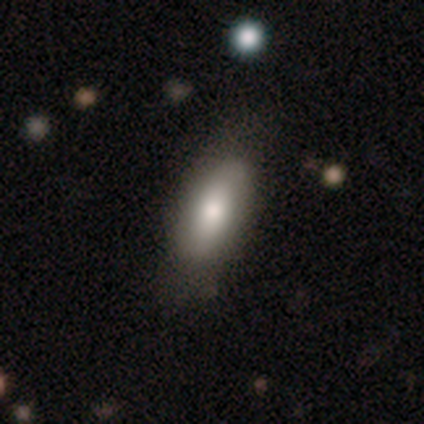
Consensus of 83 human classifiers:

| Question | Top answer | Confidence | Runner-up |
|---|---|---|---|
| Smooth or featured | smooth | 76% | featured or disk (19%) |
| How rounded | in between | 78% | cigar-shaped (19%) |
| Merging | none | 76% | minor disturbance (18%) |